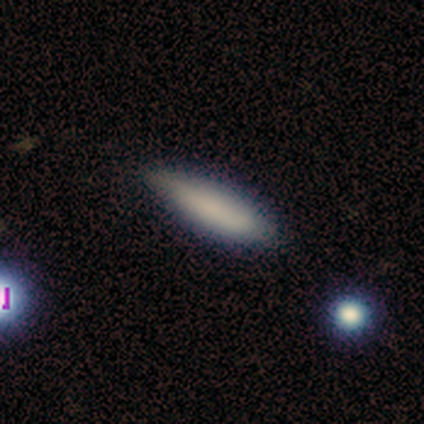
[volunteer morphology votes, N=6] Q: Smooth or featured?
A: smooth (100%)
Q: How rounded?
A: in between (50%); tied with: cigar-shaped (50%)
Q: Merging?
A: none (83%); runner-up: minor disturbance (17%)